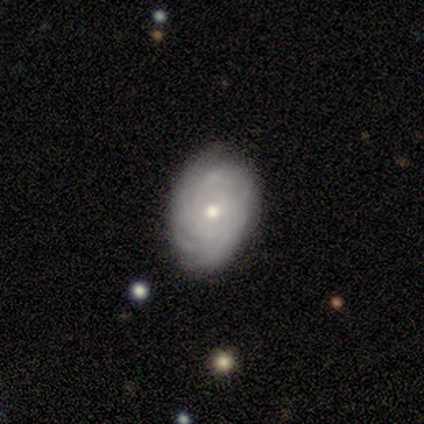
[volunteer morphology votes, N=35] Smooth or featured? featured or disk (80%)
Edge-on disk? no (100%)
Bar? no (68%)
Spiral arms? yes (93%)
Spiral winding? tight (88%)
Spiral arm count? can't tell (54%)
Bulge size? small (50%)
Merging? none (79%)